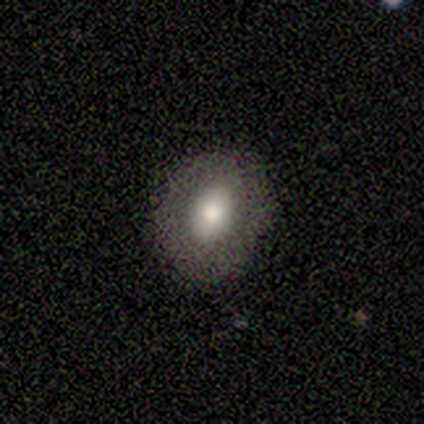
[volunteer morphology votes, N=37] Smooth or featured? smooth (76%)
How rounded? in between (61%)
Merging? none (73%)